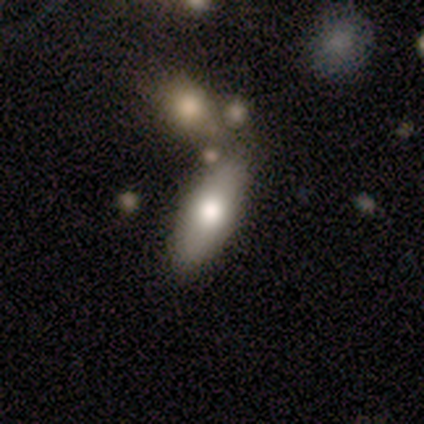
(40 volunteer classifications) A smooth galaxy with no disk features (70%) that is in between round and cigar-shaped (96%).

Vote fractions:
- Smooth or featured? smooth: 70% / featured or disk: 25% / star or artifact: 5%
- How rounded? in between: 96% / cigar-shaped: 4% / round: 0%
- Merging? none: 53% / merger: 21% / minor disturbance: 8% / major disturbance: 5%